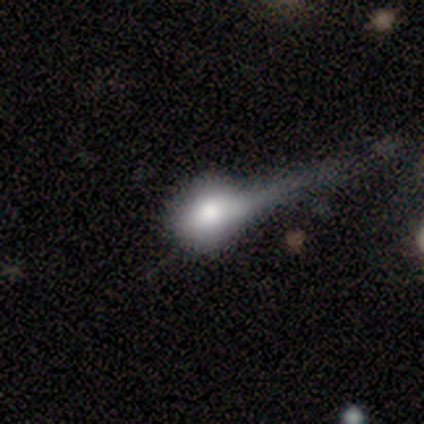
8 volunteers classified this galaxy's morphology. type=smooth (75%); roundness=round (67%); merging=none (62%).